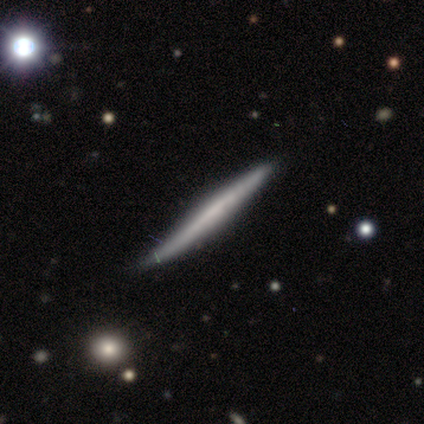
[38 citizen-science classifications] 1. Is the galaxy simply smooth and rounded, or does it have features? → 63% featured or disk, 32% smooth, 5% star or artifact.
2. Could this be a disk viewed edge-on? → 100% yes, 0% no.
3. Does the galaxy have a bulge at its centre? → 92% none, 8% rounded, 0% boxy.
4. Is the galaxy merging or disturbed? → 89% none, 11% minor disturbance, 0% major disturbance, 0% merger.